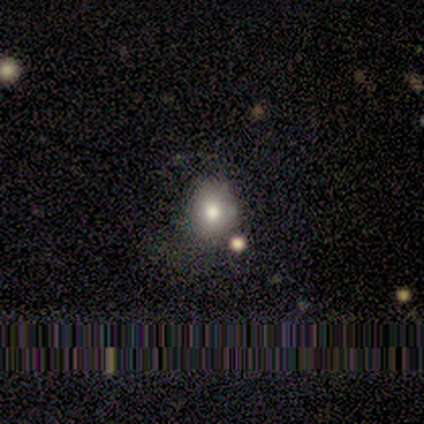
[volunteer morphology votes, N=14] This is likely a smooth galaxy (71%). How rounded: likely round (60%). Merging: possibly none (55%).